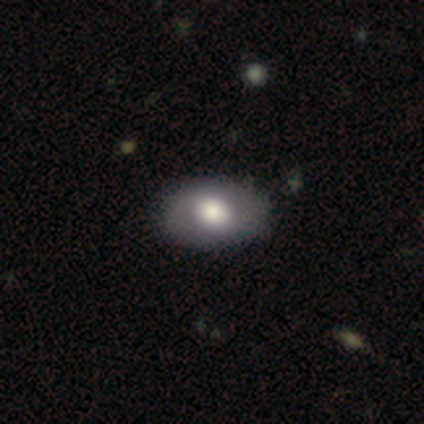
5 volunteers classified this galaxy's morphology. This is clearly a featured or disk galaxy (100%). It is clearly not viewed edge-on (100%). Bar: clearly no (100%). Spiral arm pattern: clearly no (80%). Central bulge: clearly moderate (80%). Merging: clearly none (80%).